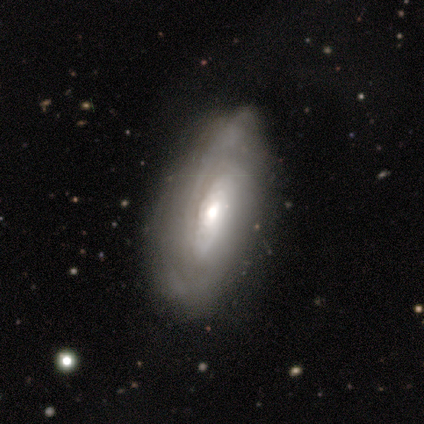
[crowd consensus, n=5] Overall: featured or disk (80%). Edge-on disk: no (100%). Bar: weak (50%, tied with no). Spiral arms: yes (75%). Spiral arm count: can't tell (67%; 3 33%). Spiral winding: tight (67%; loose 33%). Bulge size: moderate (75%). Merging: none (50%, tied with minor disturbance).